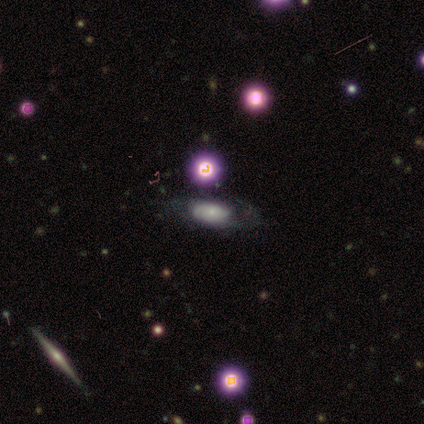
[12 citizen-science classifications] A featured or disk galaxy (67%) with no bar (100%), 2 (60%) tight (40%, tied with medium) spiral arms (83%) and a small central bulge (100%).

Vote fractions:
- Smooth or featured? featured or disk: 67% / smooth: 25% / star or artifact: 8%
- Edge-on disk? no: 75% / yes: 25%
- Bar? no: 100% / strong: 0% / weak: 0%
- Spiral arms? yes: 83% / no: 17%
- Spiral winding? tight: 40% (tied) / medium: 40% (tied) / loose: 20%
- Spiral arm count? 2: 60% / 1: 20% / can't tell: 20% / 3: 0% / 4: 0% / more than 4: 0%
- Bulge size? small: 100% / dominant: 0% / large: 0% / moderate: 0% / none: 0%
- Merging? none: 82% / minor disturbance: 9% / major disturbance: 9% / merger: 0%